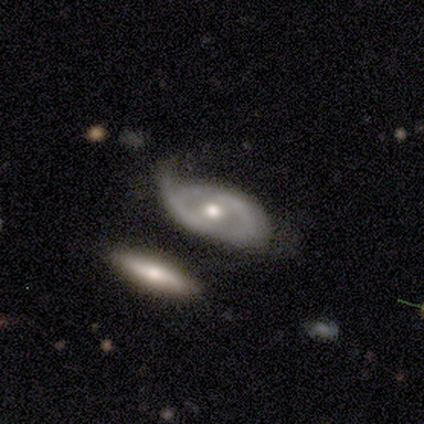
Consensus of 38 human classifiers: A featured or disk galaxy (61%) with no bar (55%), 1 (38%, tied with 2) tight (38%, tied with loose) spiral arms (59%) and a moderate central bulge (64%).

Vote fractions:
- Smooth or featured? featured or disk: 61% / smooth: 32% / star or artifact: 8%
- Edge-on disk? no: 96% / yes: 4%
- Bar? no: 55% / weak: 36% / strong: 9%
- Spiral arms? yes: 59% / no: 41%
- Spiral winding? tight: 38% (tied) / loose: 38% (tied) / medium: 23%
- Spiral arm count? 1: 38% (tied) / 2: 38% (tied) / can't tell: 23% / 3: 0% / 4: 0% / more than 4: 0%
- Bulge size? moderate: 64% / small: 36% / dominant: 0% / large: 0% / none: 0%
- Merging? minor disturbance: 40% / none: 29% / major disturbance: 29% / merger: 3%